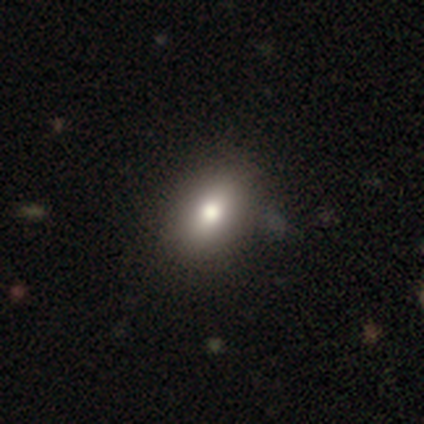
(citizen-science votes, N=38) Smooth or featured?
  - smooth: 68% *
  - star or artifact: 18%
  - featured or disk: 13%
How rounded?
  - in between: 65% *
  - round: 23%
  - cigar-shaped: 12%
Merging?
  - none: 81% *
  - minor disturbance: 16%
  - merger: 3%
  - major disturbance: 0%